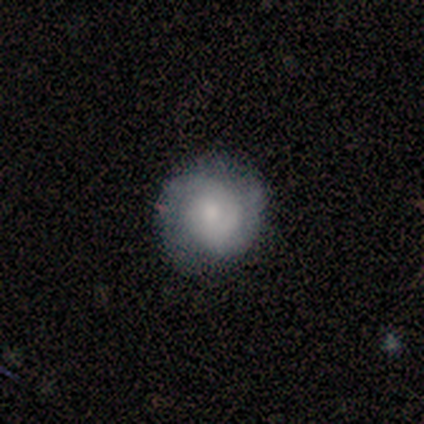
featured or disk 100%, smooth 0%, star or artifact 0%. Down the decision tree: edge-on disk — no (100%); bar — no (100%); spiral arms — yes (50%, tied with no); spiral arm count — can't tell (100%); spiral winding — medium (100%); bulge size — small (100%); merging — none (100%).